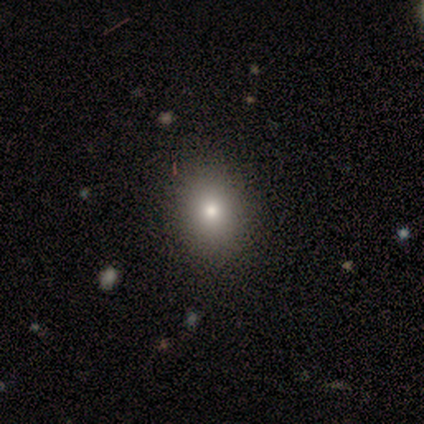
Volunteers were most divided on "how rounded": in between: 53%, round: 47%, cigar-shaped: 0%. More confident: smooth or featured — smooth (92%); merging — none (69%).